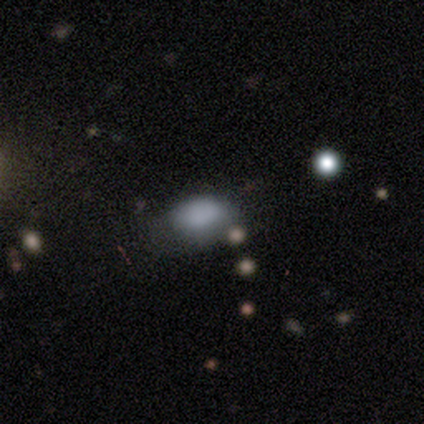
Smooth or featured: smooth — 100%
How rounded: in between — 60% (round — 40%)
Merging: none — 60% (major disturbance — 40%)